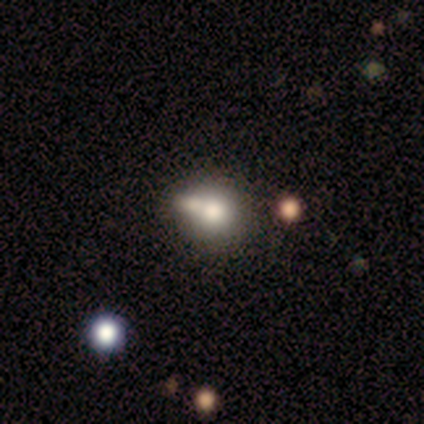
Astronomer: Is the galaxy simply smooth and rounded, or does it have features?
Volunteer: star or artifact — 60%.